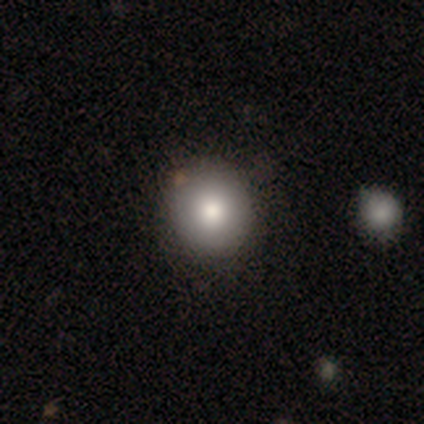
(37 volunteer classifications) Smooth or featured? smooth (86%)
How rounded? round (91%)
Merging? none (91%)